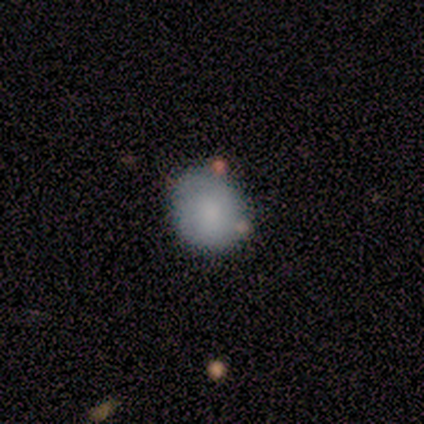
Smooth or featured?
  - smooth: 100% *
  - featured or disk: 0%
  - star or artifact: 0%
How rounded?
  - round: 75% *
  - in between: 25%
  - cigar-shaped: 0%
Merging?
  - none: 75% *
  - minor disturbance: 25%
  - major disturbance: 0%
  - merger: 0%